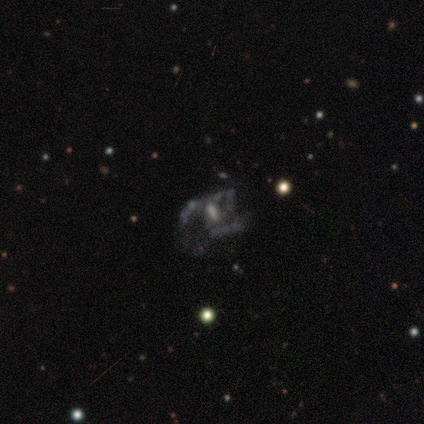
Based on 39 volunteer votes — Smooth or featured? 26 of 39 (67%) said featured or disk. Edge-on disk? 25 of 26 (96%) said no. Bar? 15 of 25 (60%) said no. Spiral arms? 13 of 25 (52%) said no. Bulge size? 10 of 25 (40%) said small. Merging? 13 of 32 (41%) said major disturbance.